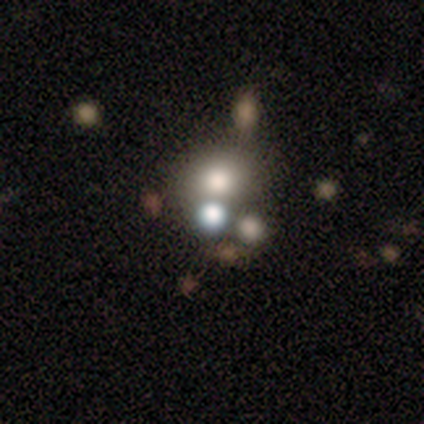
Morphology: type=star or artifact (60%).